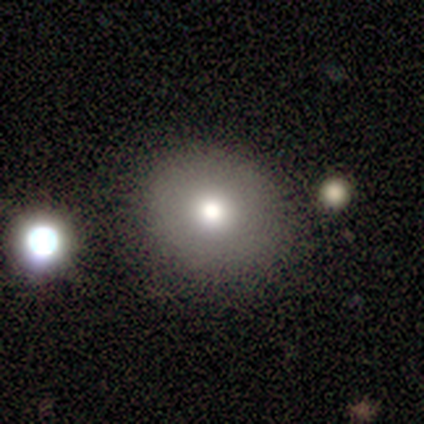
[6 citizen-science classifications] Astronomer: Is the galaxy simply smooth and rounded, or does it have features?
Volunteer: smooth — 83%.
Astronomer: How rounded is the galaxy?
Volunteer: round — 80%.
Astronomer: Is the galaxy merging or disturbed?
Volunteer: none — 100%.